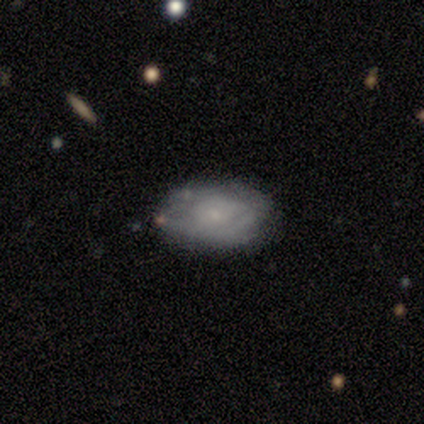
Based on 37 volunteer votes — Smooth or featured? 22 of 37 (59%) said featured or disk. Edge-on disk? 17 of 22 (77%) said no. Bar? 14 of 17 (82%) said no. Spiral arms? 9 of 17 (53%) said yes. Spiral winding? 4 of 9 (44%, tied with medium) said tight. Spiral arm count? 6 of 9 (67%) said can't tell. Bulge size? 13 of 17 (76%) said small. Merging? 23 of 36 (64%) said none.